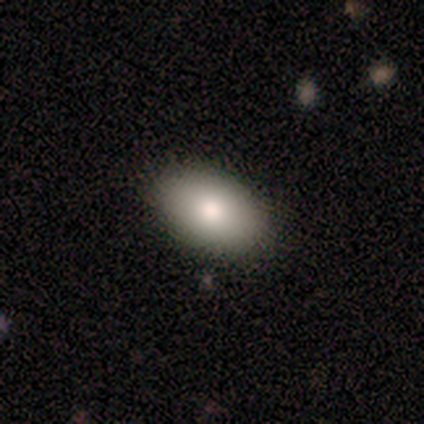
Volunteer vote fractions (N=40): Volunteers were most divided on "smooth or featured": smooth: 82%, star or artifact: 12%, featured or disk: 5%. More confident: how rounded — in between (100%); merging — none (91%).